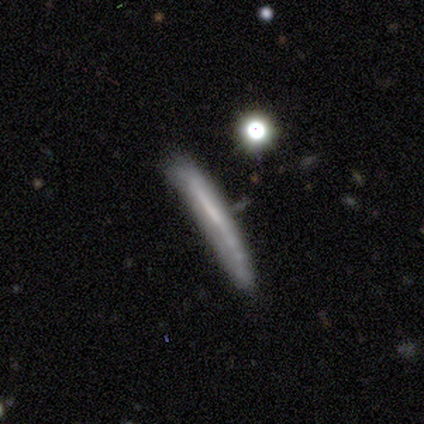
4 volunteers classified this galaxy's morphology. Smooth or featured?
  - smooth: 50% * (tied)
  - featured or disk: 50% * (tied)
  - star or artifact: 0%
How rounded?
  - cigar-shaped: 100% *
  - round: 0%
  - in between: 0%
Merging?
  - none: 50% *
  - minor disturbance: 25%
  - merger: 25%
  - major disturbance: 0%